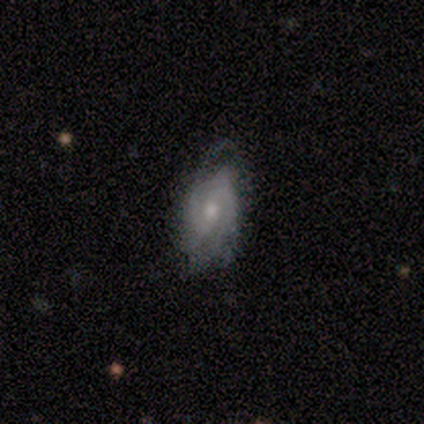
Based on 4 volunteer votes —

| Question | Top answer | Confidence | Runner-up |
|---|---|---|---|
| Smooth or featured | featured or disk | 100% | — |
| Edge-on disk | no | 100% | — |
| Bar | strong | 50% | tied: weak (50%) |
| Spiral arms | yes | 75% | no (25%) |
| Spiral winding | tight | 67% | medium (33%) |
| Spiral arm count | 2 | 67% | 1 (33%) |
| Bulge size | moderate | 50% | tied: small (50%) |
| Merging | minor disturbance | 75% | none (25%) |